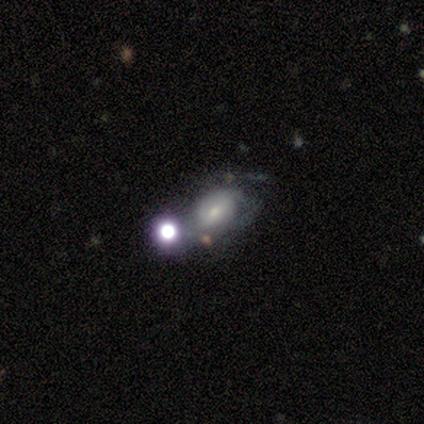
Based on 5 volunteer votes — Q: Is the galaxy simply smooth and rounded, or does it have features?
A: smooth — 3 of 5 (60%).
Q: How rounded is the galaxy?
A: in between — 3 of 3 (100%).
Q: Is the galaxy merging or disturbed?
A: minor disturbance — 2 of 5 (40%).